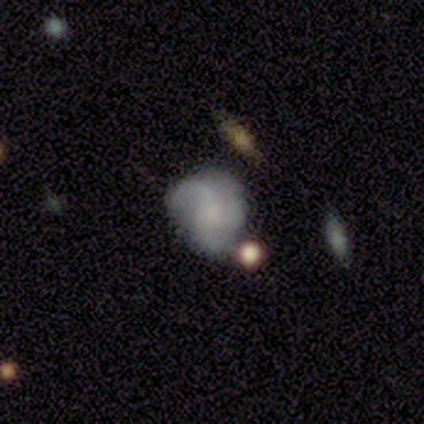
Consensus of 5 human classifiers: Q: Smooth or featured?
A: featured or disk (60%); runner-up: smooth (40%)
Q: Edge-on disk?
A: no (100%)
Q: Bar?
A: no (100%)
Q: Spiral arms?
A: no (67%); runner-up: yes (33%)
Q: Bulge size?
A: moderate (33%); tied with: small (33%); none (33%)
Q: Merging?
A: none (60%); runner-up: minor disturbance (20%)